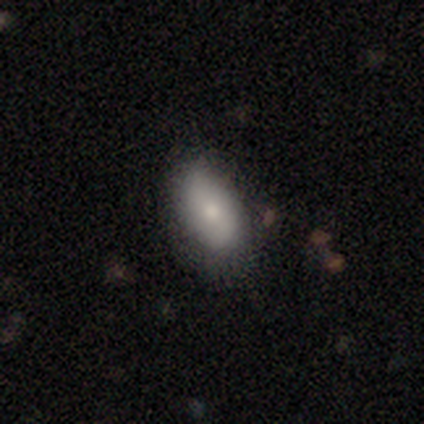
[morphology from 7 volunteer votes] Smooth or featured? smooth (71%)
How rounded? in between (80%)
Merging? none (57%)